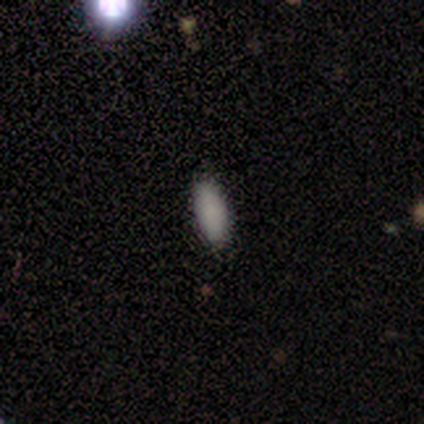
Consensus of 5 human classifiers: This is clearly a smooth galaxy (100%). How rounded: clearly in between (80%). Merging: clearly none (100%).